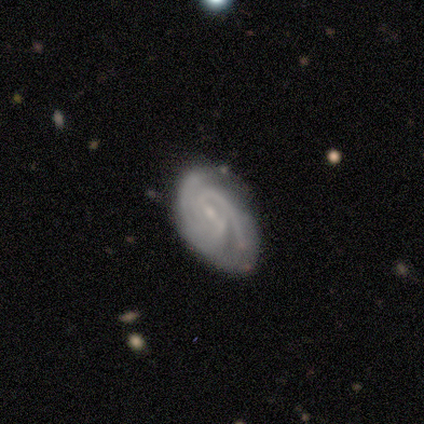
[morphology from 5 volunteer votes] This appears to be a featured or disk galaxy (100%) with a weak bar (80%), tight (80%) spiral arms (100%) and a moderate central bulge (40%, tied with small). Merging: none (60%).